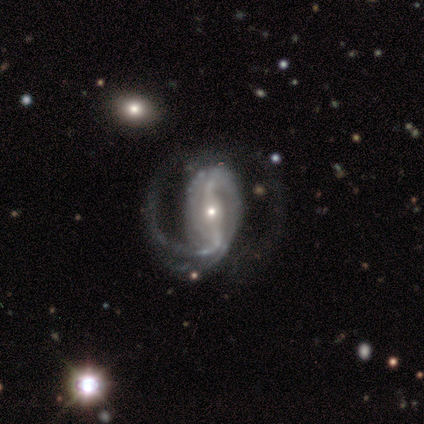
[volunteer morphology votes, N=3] Smooth or featured: featured or disk — 67% (star or artifact — 33%)
Edge-on disk: no — 100%
Bar: strong — 50% (tied with weak — 50%)
Spiral arms: yes — 100%
Spiral winding: tight — 50% (tied with medium — 50%)
Spiral arm count: 2 — 100%
Bulge size: small — 100%
Merging: minor disturbance — 50% (tied with major disturbance — 50%)